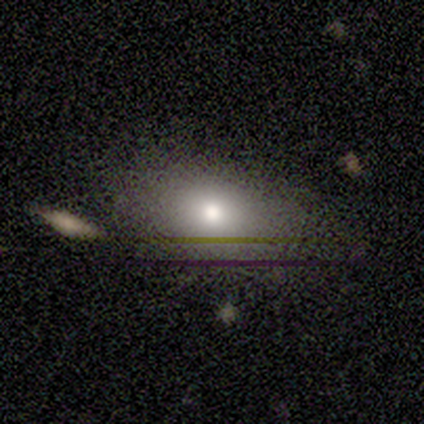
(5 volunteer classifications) smooth-or-featured: smooth: 80% | star or artifact: 20% | featured or disk: 0%
  how-rounded: in between: 75% | round: 25% | cigar-shaped: 0%
  merging: none: 75% | merger: 25% | minor disturbance: 0% | major disturbance: 0%